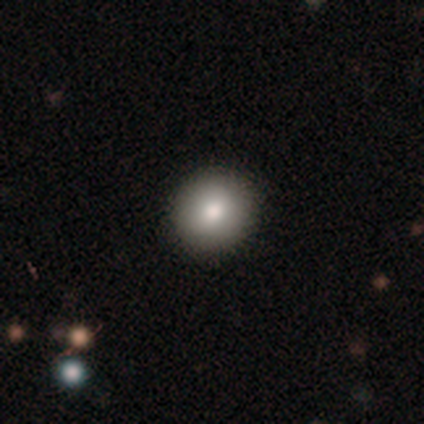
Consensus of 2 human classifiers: Smooth or featured? smooth (50%, tied with featured or disk)
How rounded? round (100%)
Merging? none (100%)